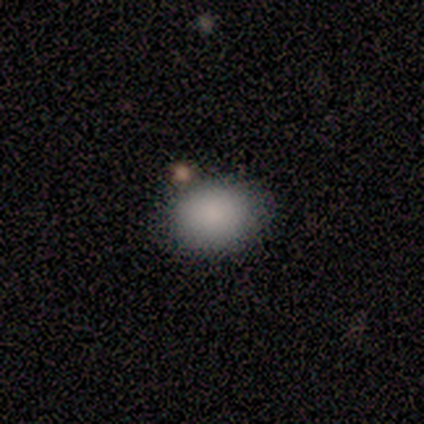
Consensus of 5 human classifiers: A smooth galaxy with no disk features (100%) that is round (60%). Merging: none (40%).